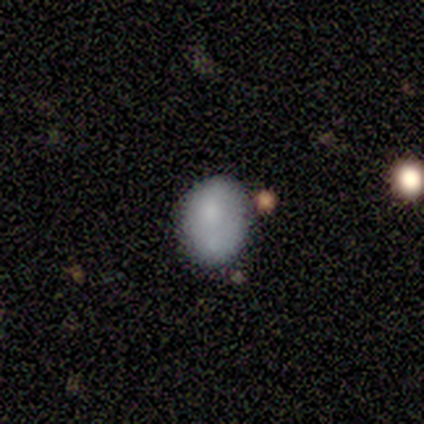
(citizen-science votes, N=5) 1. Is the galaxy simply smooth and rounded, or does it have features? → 60% smooth, 40% featured or disk, 0% star or artifact.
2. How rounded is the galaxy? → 100% in between, 0% round, 0% cigar-shaped.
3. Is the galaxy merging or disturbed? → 40% minor disturbance (tied), 40% merger (tied), 20% none, 0% major disturbance.